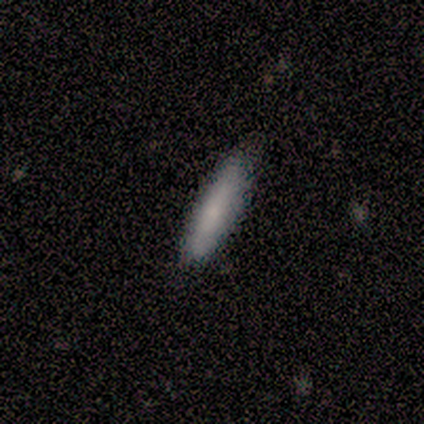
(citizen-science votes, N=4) smooth 50%, featured or disk 25%, star or artifact 25%. Down the decision tree: how rounded — in between (50%, tied with cigar-shaped); merging — none (67%).